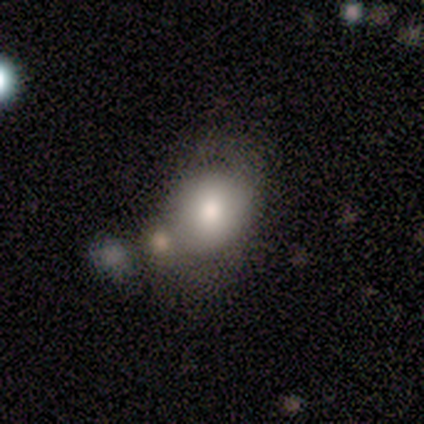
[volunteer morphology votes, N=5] smooth_or_featured: smooth (p=0.80) [alt: featured or disk p=0.20]
how_rounded: round (p=0.50) [tied with: in between p=0.50]
merging: minor disturbance (p=0.40) [tied with: merger p=0.40]